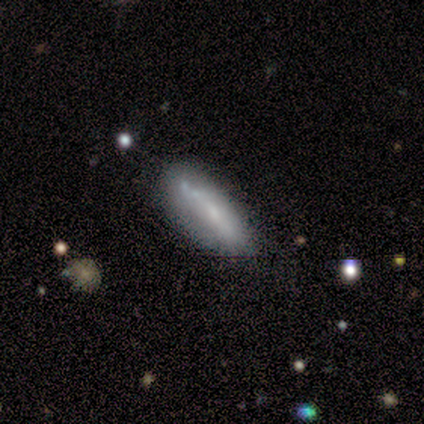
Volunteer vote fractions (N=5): smooth-or-featured: smooth: 80% | featured or disk: 20% | star or artifact: 0%
  how-rounded: cigar-shaped: 75% | in between: 25% | round: 0%
  merging: none: 40% (tied) | minor disturbance: 40% (tied) | major disturbance: 20% | merger: 0%